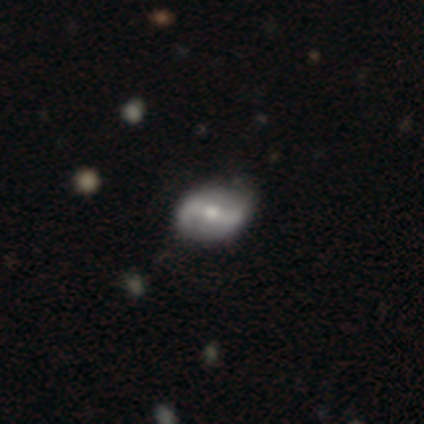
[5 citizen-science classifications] Smooth or featured: smooth — 80% (featured or disk — 20%)
How rounded: round — 50% (tied with in between — 50%)
Merging: none — 100%